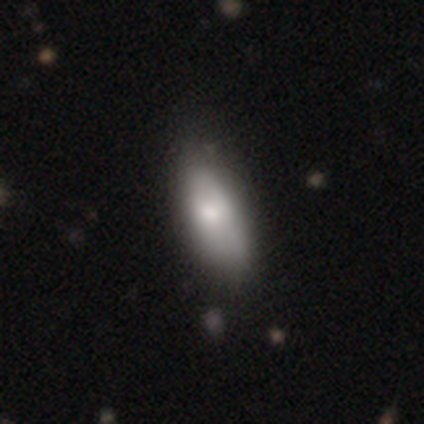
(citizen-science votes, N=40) Smooth or featured?
  - smooth: 70% *
  - featured or disk: 30%
  - star or artifact: 0%
How rounded?
  - in between: 89% *
  - cigar-shaped: 11%
  - round: 0%
Merging?
  - none: 60% *
  - minor disturbance: 20%
  - major disturbance: 2%
  - merger: 0%